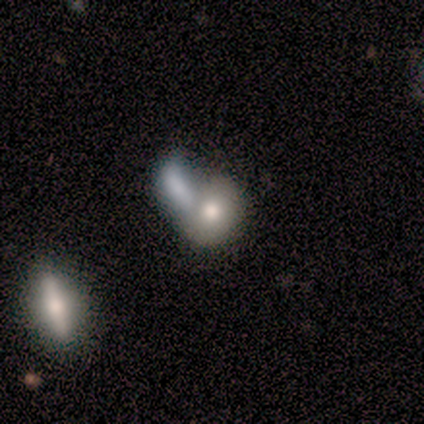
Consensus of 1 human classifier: smooth-or-featured: smooth: 100% | featured or disk: 0% | star or artifact: 0%
  how-rounded: round: 100% | in between: 0% | cigar-shaped: 0%
  merging: merger: 100% | none: 0% | minor disturbance: 0% | major disturbance: 0%